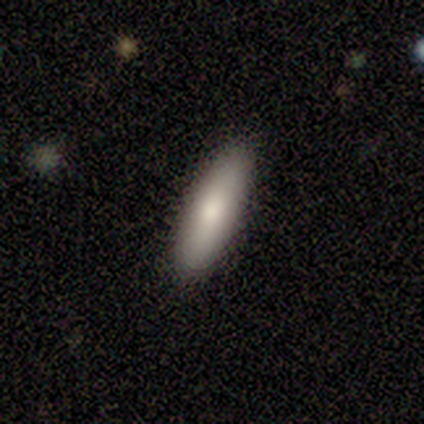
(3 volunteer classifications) Smooth or featured? 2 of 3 (67%) said smooth. How rounded? 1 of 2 (50%, tied with cigar-shaped) said in between. Merging? 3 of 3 (100%) said none.